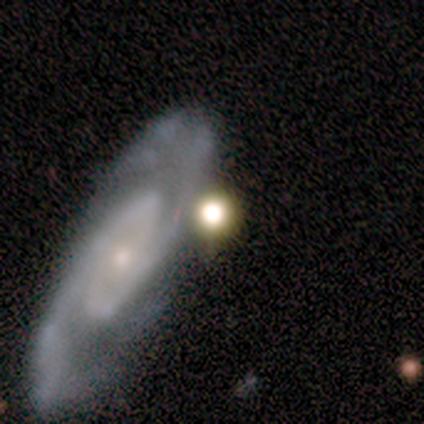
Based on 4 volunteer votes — A smooth galaxy with no disk features (50%, tied with featured or disk) that is round (100%).

Vote fractions:
- Smooth or featured? smooth: 50% (tied) / featured or disk: 50% (tied) / star or artifact: 0%
- How rounded? round: 100% / in between: 0% / cigar-shaped: 0%
- Merging? none: 75% / minor disturbance: 25% / major disturbance: 0% / merger: 0%